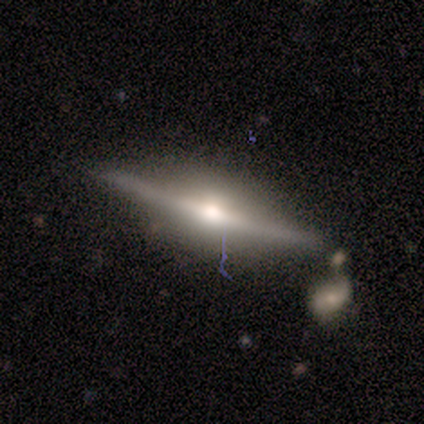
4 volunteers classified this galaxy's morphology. Smooth or featured? 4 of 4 (100%) said featured or disk. Edge-on disk? 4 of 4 (100%) said yes. Edge-on bulge? 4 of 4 (100%) said rounded. Merging? 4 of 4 (100%) said none.